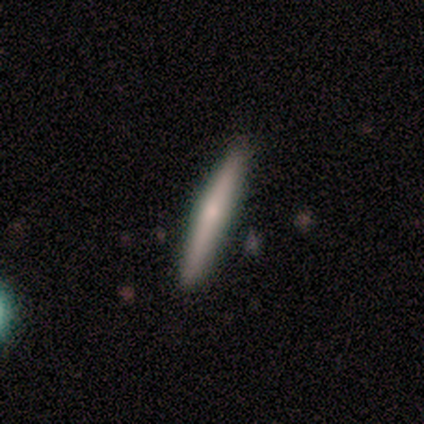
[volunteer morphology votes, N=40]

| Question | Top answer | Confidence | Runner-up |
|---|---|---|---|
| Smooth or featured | smooth | 52% | featured or disk (40%) |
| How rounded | cigar-shaped | 95% | in between (5%) |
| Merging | none | 89% | minor disturbance (11%) |